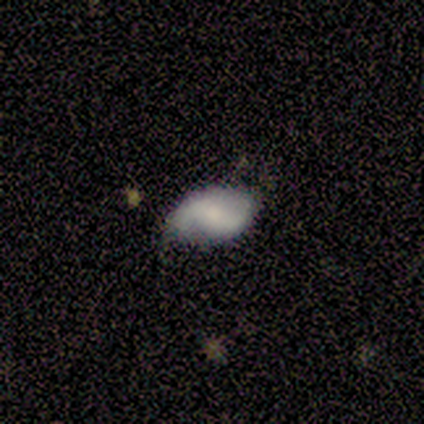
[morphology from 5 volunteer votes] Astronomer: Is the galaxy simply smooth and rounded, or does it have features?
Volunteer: featured or disk — 40%, tied with star or artifact at 40%.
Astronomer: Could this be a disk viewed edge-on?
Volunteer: no — 100%.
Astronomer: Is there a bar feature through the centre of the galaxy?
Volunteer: strong — 50%, tied with weak at 50%.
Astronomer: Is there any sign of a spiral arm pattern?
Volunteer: yes — 100%.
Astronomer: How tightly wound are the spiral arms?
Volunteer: medium — 50%, tied with loose at 50%.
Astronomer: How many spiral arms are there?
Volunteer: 2 — 100%.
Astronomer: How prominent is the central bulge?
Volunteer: small — 100%.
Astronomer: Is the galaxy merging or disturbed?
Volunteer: none — 100%.